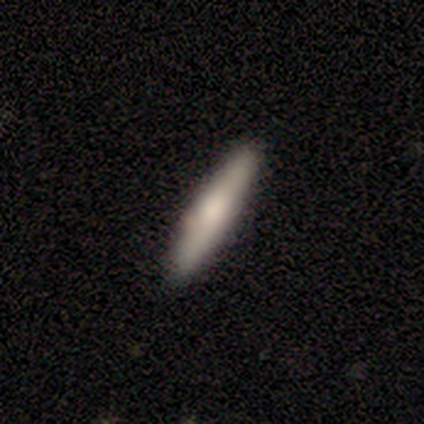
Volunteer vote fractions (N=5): This appears to be a smooth galaxy with no disk features (40%, tied with featured or disk) that is cigar-shaped (100%). Merging: none (100%).